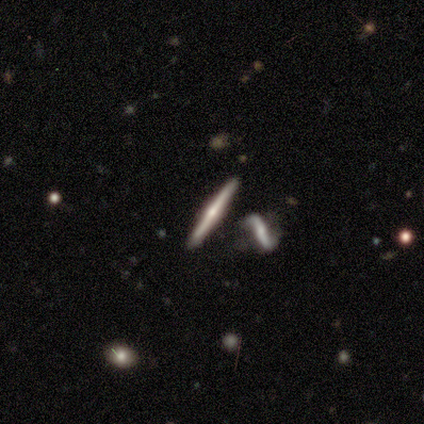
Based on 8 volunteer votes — A featured or disk galaxy (88%) viewed edge-on (86%) with a rounded central bulge (83%).

Vote fractions:
- Smooth or featured? featured or disk: 88% / star or artifact: 12% / smooth: 0%
- Edge-on disk? yes: 86% / no: 14%
- Edge-on bulge? rounded: 83% / none: 17% / boxy: 0%
- Merging? none: 86% / major disturbance: 14% / minor disturbance: 0% / merger: 0%